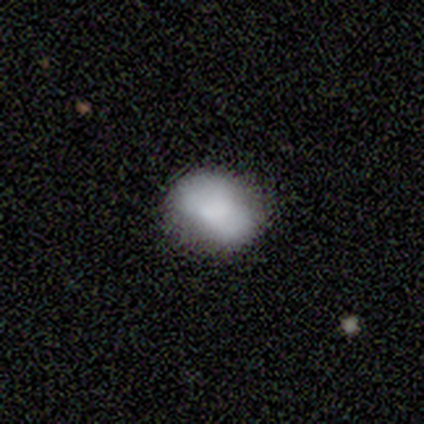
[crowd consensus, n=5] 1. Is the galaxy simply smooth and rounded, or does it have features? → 100% smooth, 0% featured or disk, 0% star or artifact.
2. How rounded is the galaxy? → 60% in between, 40% round, 0% cigar-shaped.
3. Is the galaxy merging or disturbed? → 60% none, 40% minor disturbance, 0% major disturbance, 0% merger.